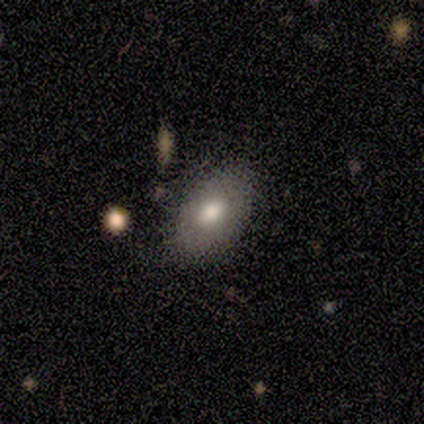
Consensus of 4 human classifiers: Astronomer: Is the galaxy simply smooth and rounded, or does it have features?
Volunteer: smooth — 75%.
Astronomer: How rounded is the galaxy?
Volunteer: in between — 67%.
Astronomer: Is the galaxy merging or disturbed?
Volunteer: none — 100%.